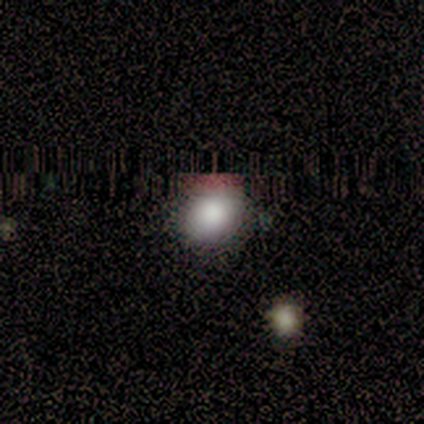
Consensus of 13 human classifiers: Smooth or featured: smooth — 77% (star or artifact — 15%)
How rounded: round — 50% (tied with in between — 50%)
Merging: none — 82% (minor disturbance — 9%)